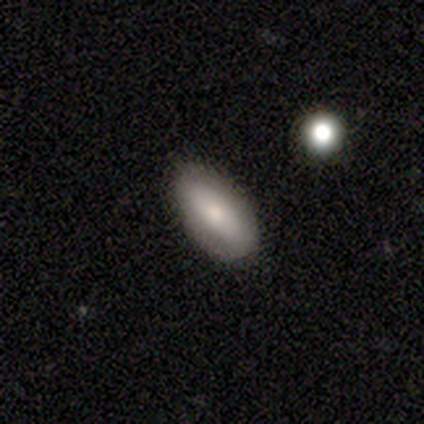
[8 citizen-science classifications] This is likely a smooth galaxy (62%). How rounded: clearly in between (100%). Merging: likely none (71%).